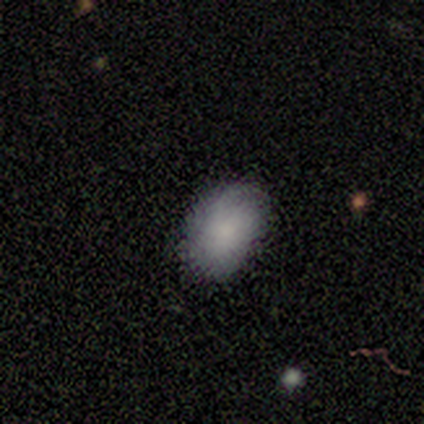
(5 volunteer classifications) Smooth or featured? 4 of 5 (80%) said smooth. How rounded? 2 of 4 (50%, tied with in between) said round. Merging? 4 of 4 (100%) said none.